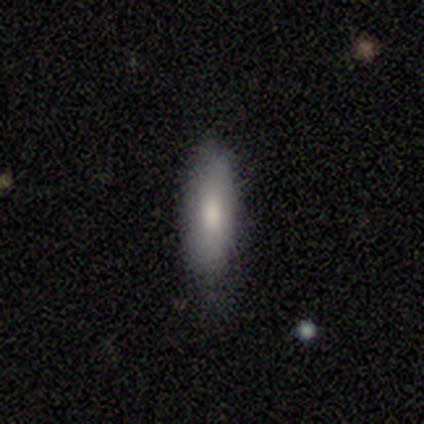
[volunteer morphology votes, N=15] Smooth or featured?
  - smooth: 87% *
  - featured or disk: 13%
  - star or artifact: 0%
How rounded?
  - in between: 62% *
  - cigar-shaped: 31%
  - round: 8%
Merging?
  - none: 60% *
  - minor disturbance: 33%
  - major disturbance: 7%
  - merger: 0%